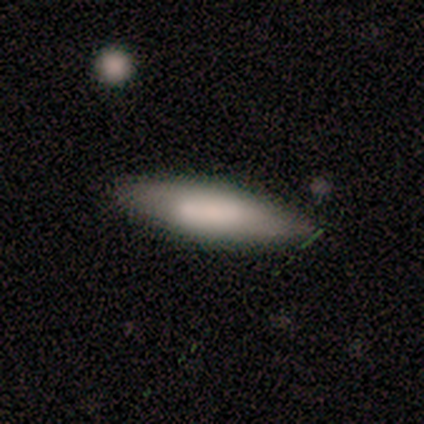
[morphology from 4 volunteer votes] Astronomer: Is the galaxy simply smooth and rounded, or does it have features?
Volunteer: smooth — 50%, tied with featured or disk at 50%.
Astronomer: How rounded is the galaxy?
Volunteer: cigar-shaped — 100%.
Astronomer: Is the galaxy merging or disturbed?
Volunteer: none — 100%.